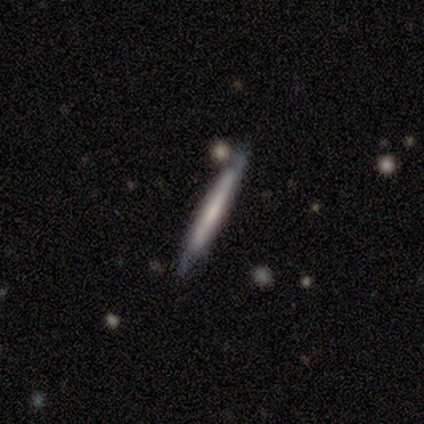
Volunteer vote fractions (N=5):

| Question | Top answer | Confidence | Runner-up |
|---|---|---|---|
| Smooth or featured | smooth | 60% | featured or disk (20%) |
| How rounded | cigar-shaped | 100% | — |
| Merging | none | 50% | tied: minor disturbance (50%) |